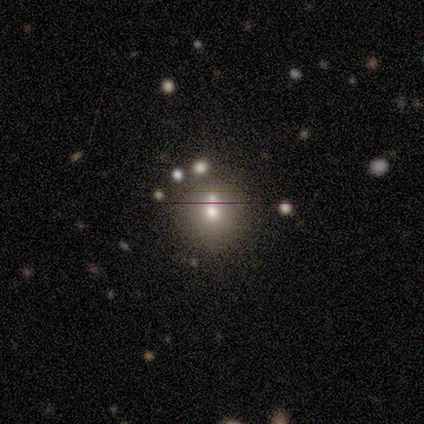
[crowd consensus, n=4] smooth_or_featured: smooth (p=1.00)
how_rounded: round (p=1.00)
merging: none (p=0.50) [alt: minor disturbance p=0.25]